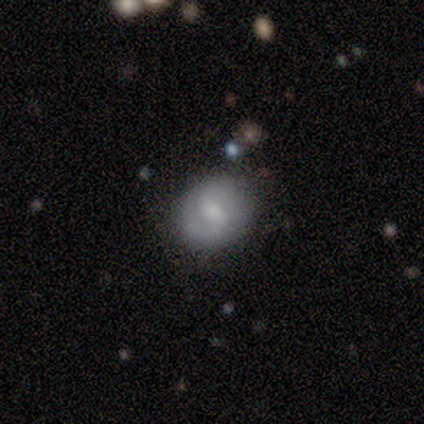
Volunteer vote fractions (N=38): Volunteers were most divided on "spiral winding": medium: 47%, tight: 42%, loose: 11%. Remaining: edge-on disk — no (100%); spiral arms — yes (83%); merging — none (81%); spiral arm count — 2 (74%); bar — weak (70%); smooth or featured — featured or disk (61%); bulge size — moderate (39%).